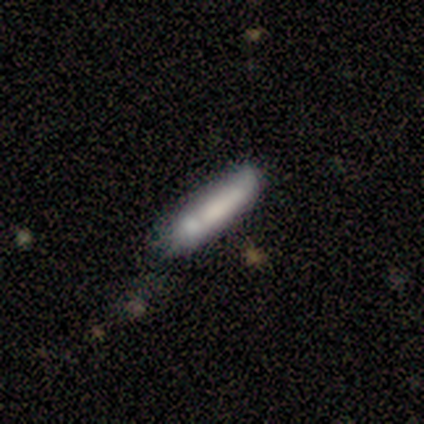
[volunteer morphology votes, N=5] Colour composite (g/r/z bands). It shows a smooth galaxy with no disk features (60%) that is cigar-shaped (100%). Merging: none (60%).